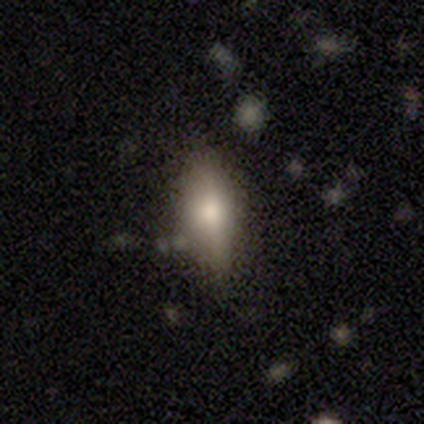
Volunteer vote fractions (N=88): Morphology: type=smooth (62%); roundness=in between (64%); merging=none (69%).